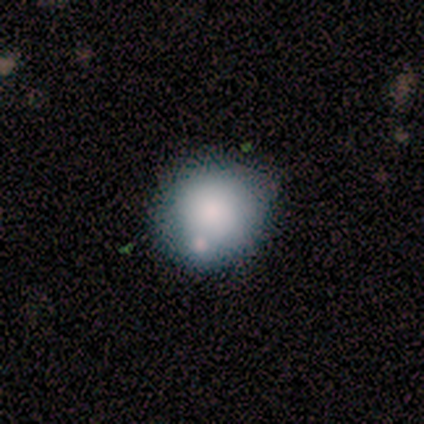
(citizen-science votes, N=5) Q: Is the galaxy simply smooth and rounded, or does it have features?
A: smooth — 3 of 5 (60%).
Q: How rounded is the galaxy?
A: round — 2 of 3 (67%).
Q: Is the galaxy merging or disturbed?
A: none — 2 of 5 (40%, tied with merger).